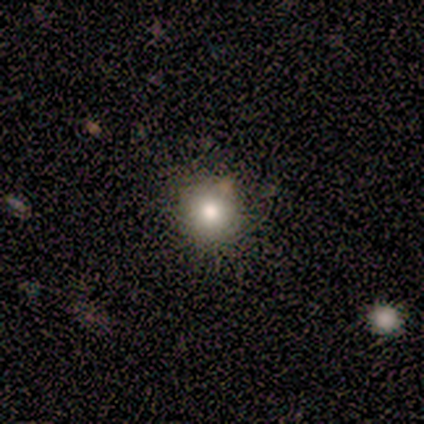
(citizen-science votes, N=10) Volunteers were most divided on "merging": none: 89%, minor disturbance: 11%, major disturbance: 0%, merger: 0%. More confident: how rounded — round (100%); smooth or featured — smooth (90%).